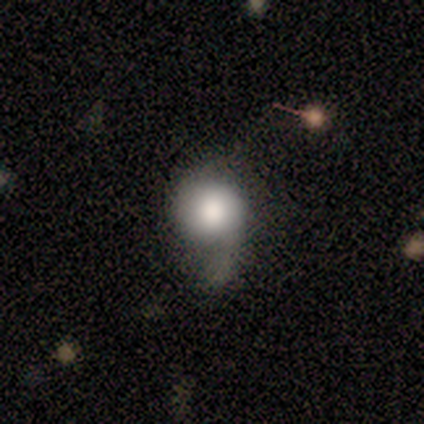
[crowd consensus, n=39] Q: Smooth or featured?
A: smooth (59%); runner-up: featured or disk (36%)
Q: How rounded?
A: round (74%); runner-up: in between (22%)
Q: Merging?
A: none (35%); runner-up: minor disturbance (32%)